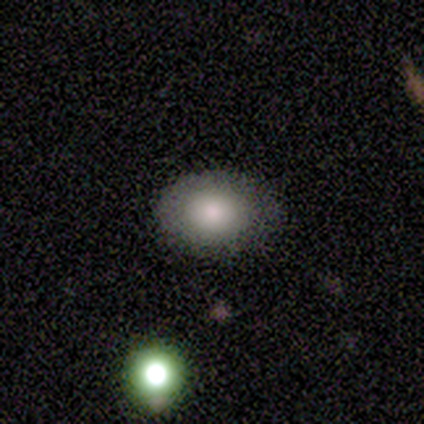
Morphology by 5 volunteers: smooth_or_featured: smooth (p=0.80) [alt: star or artifact p=0.20]
how_rounded: in between (p=0.75) [alt: round p=0.25]
merging: none (p=1.00)